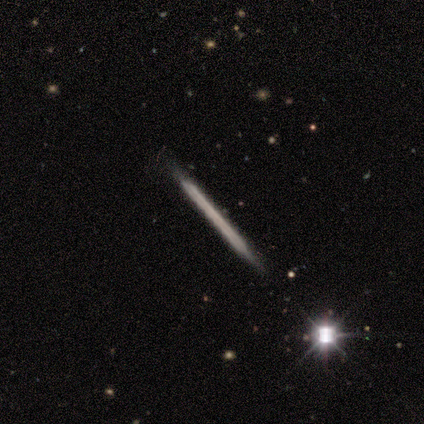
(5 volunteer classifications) Smooth or featured?
  - featured or disk: 60% *
  - smooth: 40%
  - star or artifact: 0%
Edge-on disk?
  - yes: 100% *
  - no: 0%
Edge-on bulge?
  - none: 100% *
  - boxy: 0%
  - rounded: 0%
Merging?
  - none: 80% *
  - minor disturbance: 20%
  - major disturbance: 0%
  - merger: 0%